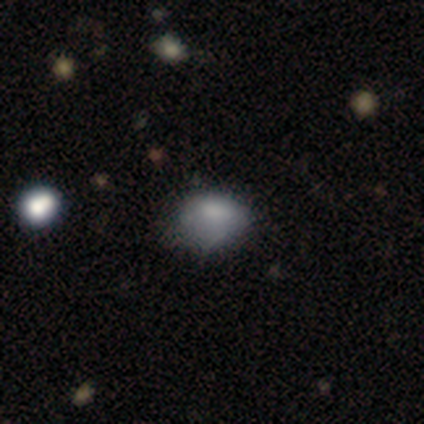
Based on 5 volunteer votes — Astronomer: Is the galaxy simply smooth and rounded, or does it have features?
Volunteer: smooth — 60% (runner-up: star or artifact, 40%).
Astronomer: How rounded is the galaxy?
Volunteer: in between — 100%.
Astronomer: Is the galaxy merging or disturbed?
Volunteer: none — 67%.